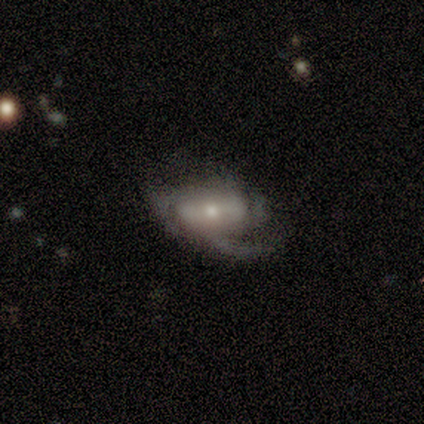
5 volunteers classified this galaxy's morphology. Overall: featured or disk (80%). Edge-on disk: no (75%). Bar: weak (67%; no 33%). Spiral arms: yes (67%; no 33%). Spiral arm count: 2 (50%, tied with 3). Spiral winding: medium (100%). Bulge size: small (67%; none 33%). Merging: major disturbance (80%).